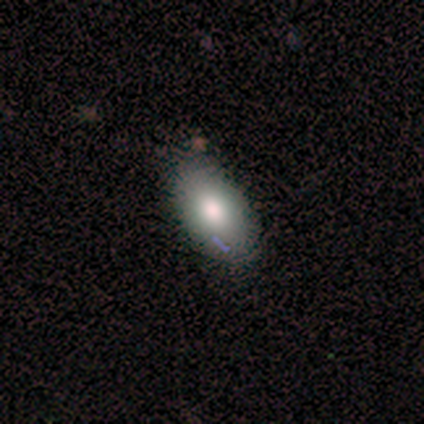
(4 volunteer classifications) This appears to be a smooth galaxy with no disk features (50%, tied with featured or disk) that is in between round and cigar-shaped (100%). Merging: none (100%).